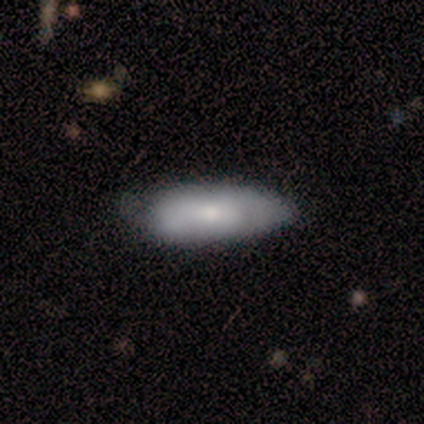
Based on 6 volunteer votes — smooth_or_featured: featured or disk (p=0.67) [alt: smooth p=0.33]
disk_edge_on: no (p=1.00)
bar: weak (p=0.50) [tied with: no p=0.50]
has_spiral_arms: no (p=0.75) [alt: yes p=0.25]
bulge_size: moderate (p=0.50) [tied with: small p=0.50]
merging: minor disturbance (p=0.83) [alt: none p=0.17]